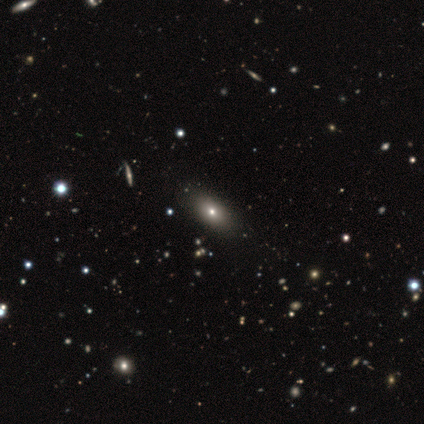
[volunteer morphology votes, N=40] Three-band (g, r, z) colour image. It shows a smooth galaxy with no disk features (75%) that is in between round and cigar-shaped (87%). Merging: none (62%).